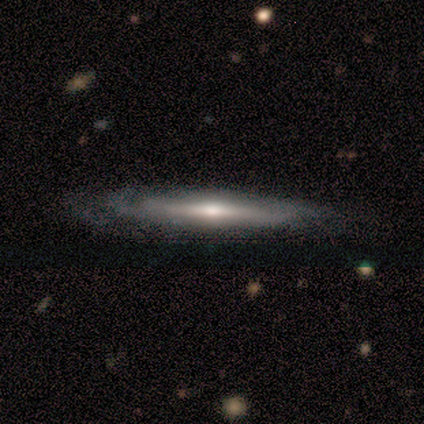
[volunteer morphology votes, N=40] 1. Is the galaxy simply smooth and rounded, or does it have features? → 68% featured or disk, 28% smooth, 5% star or artifact.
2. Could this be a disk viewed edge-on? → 81% yes, 19% no.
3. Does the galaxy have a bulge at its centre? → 77% rounded, 18% none, 5% boxy.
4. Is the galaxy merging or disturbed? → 53% none, 29% minor disturbance, 5% major disturbance, 0% merger.